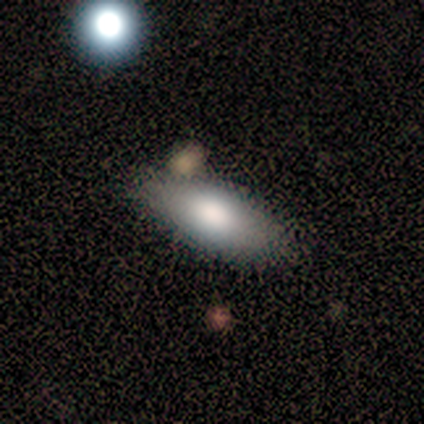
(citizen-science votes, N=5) Smooth or featured? 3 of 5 (60%) said featured or disk. Edge-on disk? 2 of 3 (67%) said yes. Edge-on bulge? 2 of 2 (100%) said rounded. Merging? 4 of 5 (80%) said none.